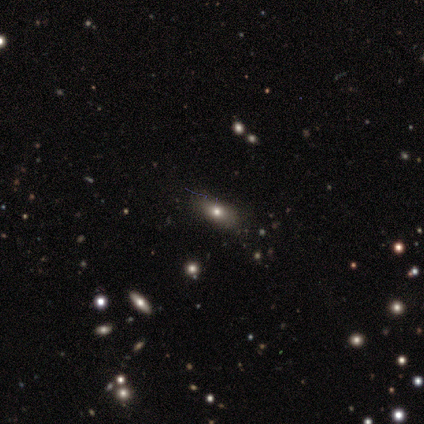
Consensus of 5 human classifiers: This is likely a smooth galaxy (60%). How rounded: likely in between (67%). Merging: clearly none (100%).